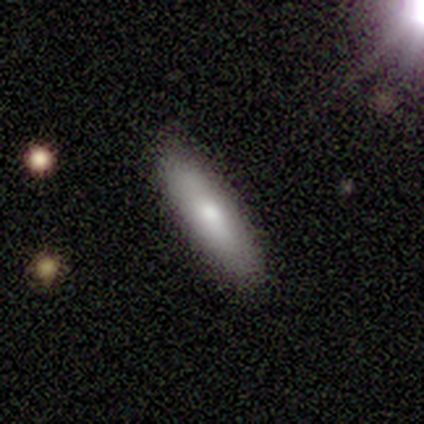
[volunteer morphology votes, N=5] smooth_or_featured: smooth (p=1.00)
how_rounded: cigar-shaped (p=0.60) [alt: in between p=0.40]
merging: none (p=1.00)